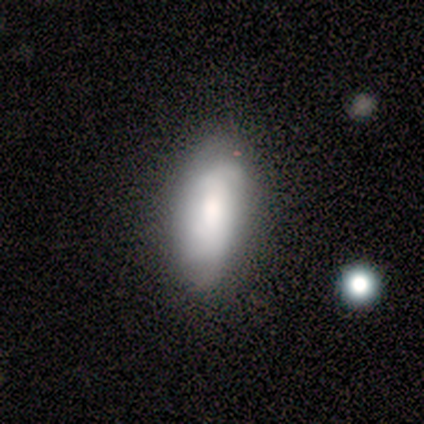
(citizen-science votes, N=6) smooth 83%, featured or disk 17%, star or artifact 0%. Down the decision tree: how rounded — in between (60%); merging — none (67%).